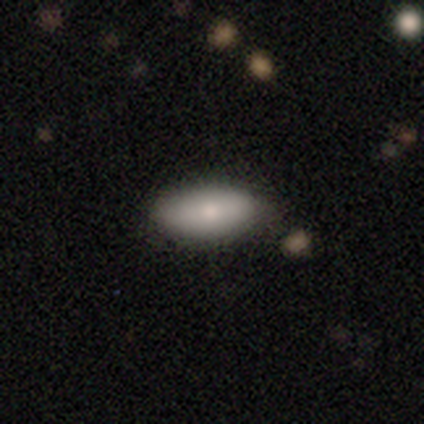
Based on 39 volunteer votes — A smooth galaxy with no disk features (90%) that is in between round and cigar-shaped (91%).

Vote fractions:
- Smooth or featured? smooth: 90% / featured or disk: 10% / star or artifact: 0%
- How rounded? in between: 91% / round: 6% / cigar-shaped: 3%
- Merging? none: 79% / minor disturbance: 21% / major disturbance: 0% / merger: 0%